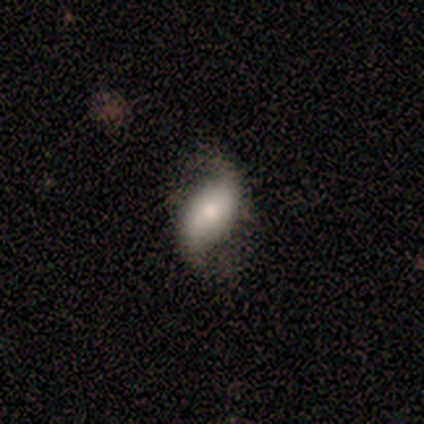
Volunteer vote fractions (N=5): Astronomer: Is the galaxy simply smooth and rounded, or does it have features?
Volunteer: featured or disk — 100%.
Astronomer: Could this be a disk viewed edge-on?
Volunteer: no — 100%.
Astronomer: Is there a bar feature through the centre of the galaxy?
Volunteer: no — 60% (runner-up: weak, 40%).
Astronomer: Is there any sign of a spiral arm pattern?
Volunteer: yes — 80%.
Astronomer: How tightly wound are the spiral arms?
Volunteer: loose — 100%.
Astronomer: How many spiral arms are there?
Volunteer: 2 — 100%.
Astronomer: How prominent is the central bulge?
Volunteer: moderate — 80%.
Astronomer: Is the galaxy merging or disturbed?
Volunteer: none — 60% (runner-up: minor disturbance, 40%).